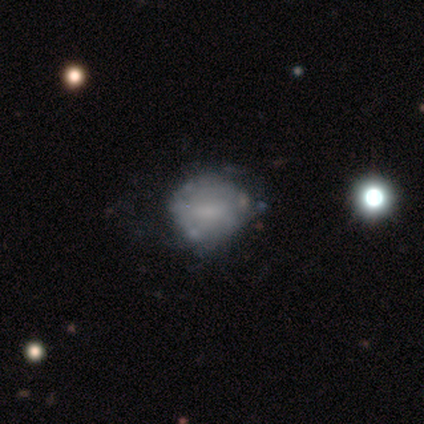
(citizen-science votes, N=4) Q: Smooth or featured?
A: featured or disk (75%); runner-up: smooth (25%)
Q: Edge-on disk?
A: no (100%)
Q: Bar?
A: no (67%); runner-up: weak (33%)
Q: Spiral arms?
A: no (67%); runner-up: yes (33%)
Q: Bulge size?
A: none (67%); runner-up: moderate (33%)
Q: Merging?
A: none (100%)